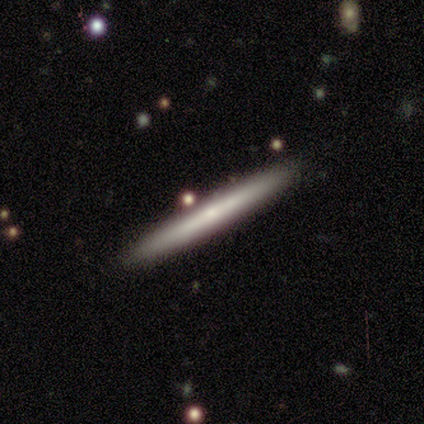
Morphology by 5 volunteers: Volunteers were most divided on "edge-on bulge" (2-way tie): none: 50%, rounded: 50%, boxy: 0%. More confident: edge-on disk — yes (100%); merging — none (100%); smooth or featured — featured or disk (80%).